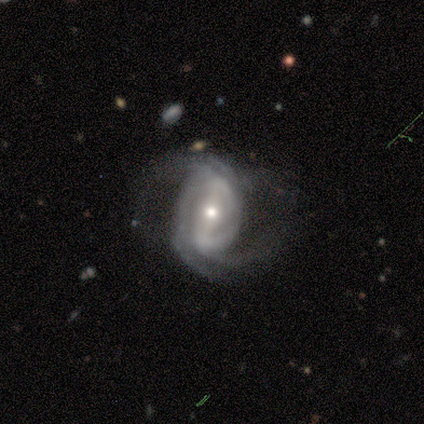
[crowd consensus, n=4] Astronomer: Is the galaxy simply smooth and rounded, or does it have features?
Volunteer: featured or disk — 75%.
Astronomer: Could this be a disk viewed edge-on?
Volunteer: no — 100%.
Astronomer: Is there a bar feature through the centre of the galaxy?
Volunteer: strong — 67%.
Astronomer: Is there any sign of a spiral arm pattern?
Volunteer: yes — 100%.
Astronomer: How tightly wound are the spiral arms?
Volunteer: tight — 33%, tied with medium and loose at 33%.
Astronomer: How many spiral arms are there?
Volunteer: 2 — 33%, tied with 3 and 4 at 33%.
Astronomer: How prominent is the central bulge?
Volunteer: moderate — 67%.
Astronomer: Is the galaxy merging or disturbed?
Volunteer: minor disturbance — 100%.